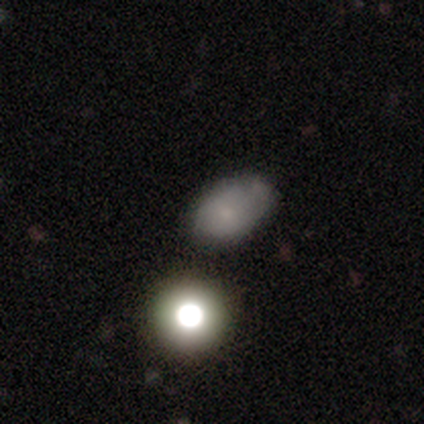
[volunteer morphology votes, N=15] type=smooth (73%); roundness=in between (91%); merging=none (42%, tied with minor disturbance).